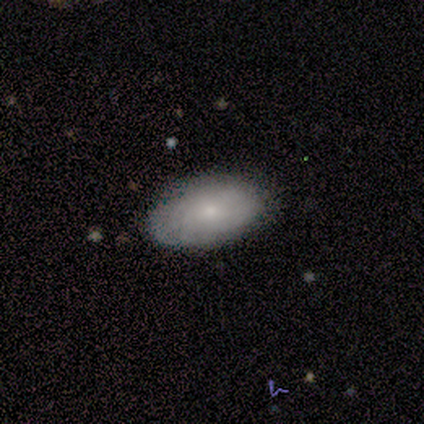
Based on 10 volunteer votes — This appears to be a smooth galaxy with no disk features (80%) that is in between round and cigar-shaped (100%). Merging: none (90%).